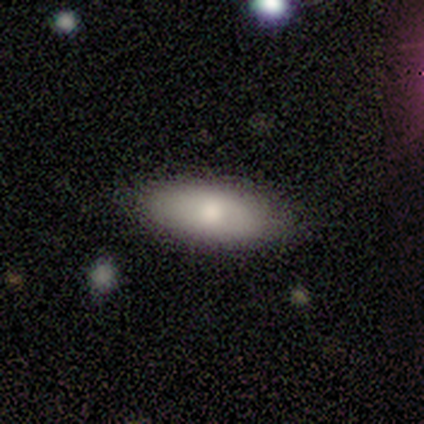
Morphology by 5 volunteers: Smooth or featured: smooth — 80% (featured or disk — 20%)
How rounded: in between — 75% (cigar-shaped — 25%)
Merging: none — 80% (minor disturbance — 20%)